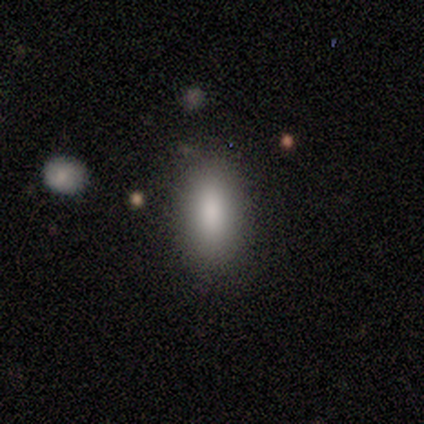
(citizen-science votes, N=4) smooth-or-featured: smooth: 100% | featured or disk: 0% | star or artifact: 0%
  how-rounded: in between: 100% | round: 0% | cigar-shaped: 0%
  merging: none: 100% | minor disturbance: 0% | major disturbance: 0% | merger: 0%